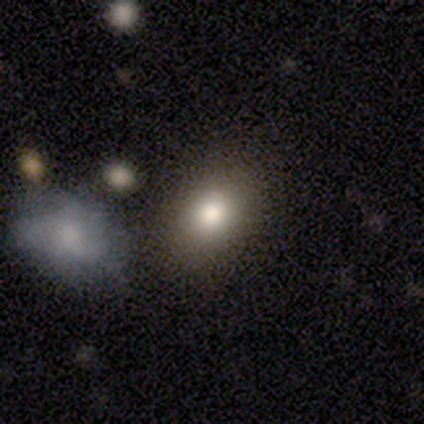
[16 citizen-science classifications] Q: Smooth or featured?
A: smooth (81%); runner-up: star or artifact (19%)
Q: How rounded?
A: in between (77%); runner-up: round (23%)
Q: Merging?
A: none (77%); runner-up: merger (15%)